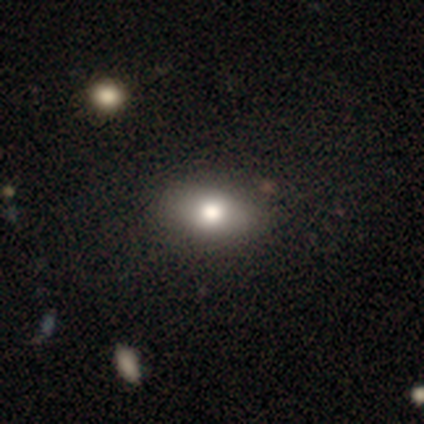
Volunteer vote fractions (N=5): Smooth or featured: smooth — 60% (featured or disk — 20%)
How rounded: in between — 100%
Merging: none — 75% (merger — 25%)